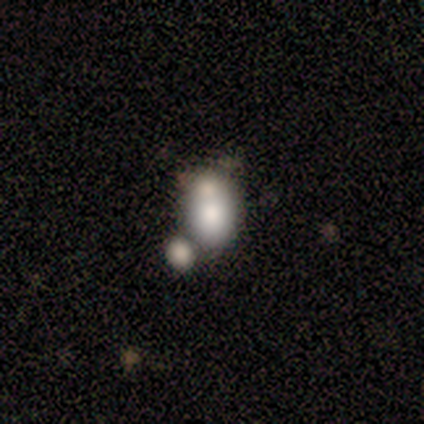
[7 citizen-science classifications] Smooth or featured?
  - smooth: 71% *
  - featured or disk: 14%
  - star or artifact: 14%
How rounded?
  - in between: 100% *
  - round: 0%
  - cigar-shaped: 0%
Merging?
  - merger: 67% *
  - none: 17%
  - minor disturbance: 17%
  - major disturbance: 0%